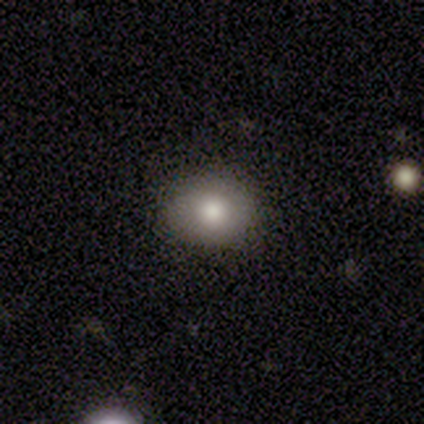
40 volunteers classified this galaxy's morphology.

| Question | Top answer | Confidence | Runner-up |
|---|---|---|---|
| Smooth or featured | smooth | 78% | star or artifact (15%) |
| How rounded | round | 58% | in between (42%) |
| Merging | none | 100% | — |